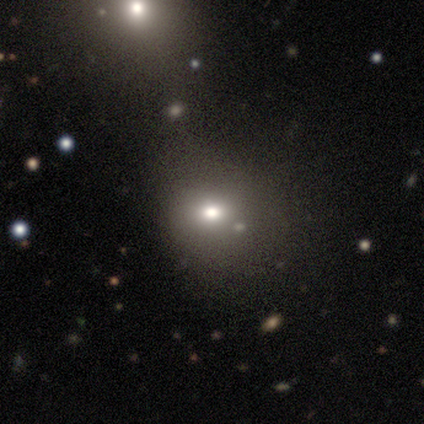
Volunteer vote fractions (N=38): Morphology: type=smooth (58%); roundness=round (68%); merging=none (56%).